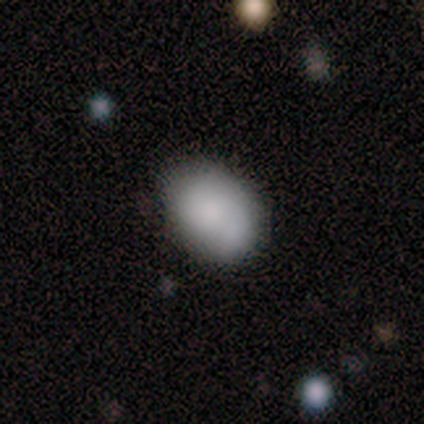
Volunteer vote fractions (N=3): Q: Smooth or featured?
A: featured or disk (67%); runner-up: smooth (33%)
Q: Edge-on disk?
A: yes (50%); tied with: no (50%)
Q: Edge-on bulge?
A: none (100%)
Q: Merging?
A: none (67%); runner-up: merger (33%)